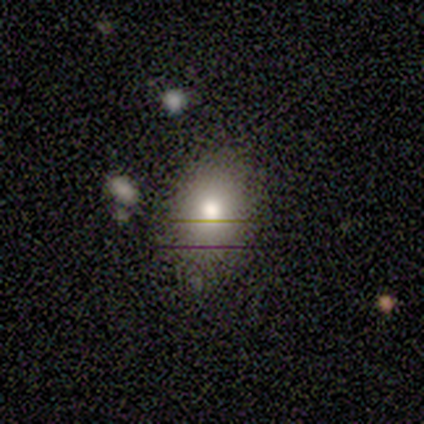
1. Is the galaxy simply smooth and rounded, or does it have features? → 100% smooth, 0% featured or disk, 0% star or artifact.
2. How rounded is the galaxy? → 60% in between, 20% round, 20% cigar-shaped.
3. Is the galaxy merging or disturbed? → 100% none, 0% minor disturbance, 0% major disturbance, 0% merger.